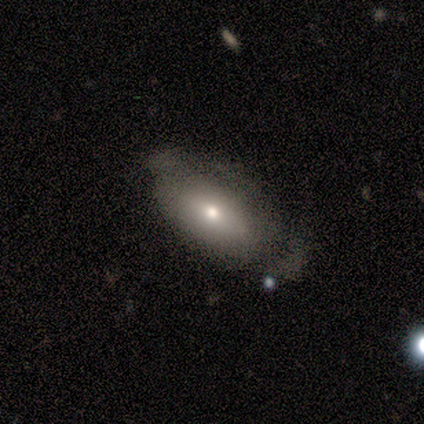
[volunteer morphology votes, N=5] Q: Smooth or featured?
A: smooth (80%); runner-up: featured or disk (20%)
Q: How rounded?
A: in between (100%)
Q: Merging?
A: minor disturbance (40%); tied with: major disturbance (40%)